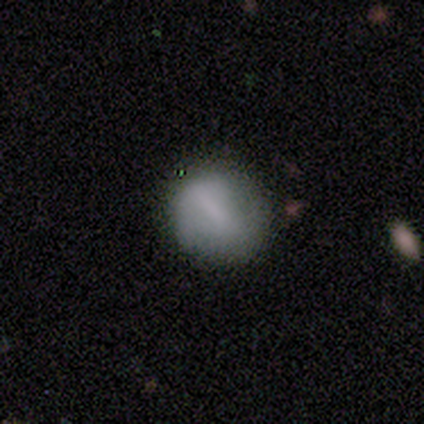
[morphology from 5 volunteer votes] Smooth or featured?
  - smooth: 60% *
  - featured or disk: 40%
  - star or artifact: 0%
How rounded?
  - round: 100% *
  - in between: 0%
  - cigar-shaped: 0%
Merging?
  - none: 80% *
  - minor disturbance: 20%
  - major disturbance: 0%
  - merger: 0%